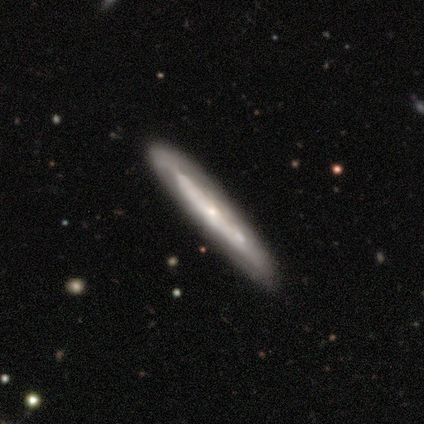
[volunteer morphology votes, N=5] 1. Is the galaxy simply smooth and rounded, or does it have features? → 60% smooth, 20% featured or disk, 20% star or artifact.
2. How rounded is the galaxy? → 100% cigar-shaped, 0% round, 0% in between.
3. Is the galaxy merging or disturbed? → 100% none, 0% minor disturbance, 0% major disturbance, 0% merger.